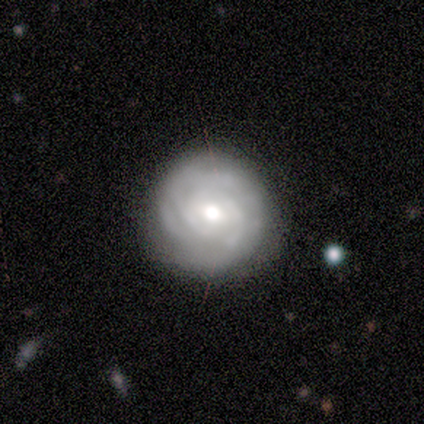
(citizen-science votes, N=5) Smooth or featured? featured or disk (100%)
Edge-on disk? no (100%)
Bar? no (60%)
Spiral arms? yes (100%)
Spiral winding? tight (60%)
Spiral arm count? can't tell (80%)
Bulge size? moderate (60%)
Merging? none (100%)